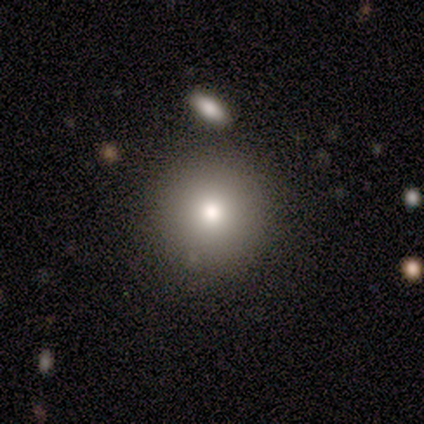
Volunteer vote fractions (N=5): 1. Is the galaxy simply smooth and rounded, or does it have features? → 100% smooth, 0% featured or disk, 0% star or artifact.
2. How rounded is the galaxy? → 100% round, 0% in between, 0% cigar-shaped.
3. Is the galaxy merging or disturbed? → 60% none, 20% minor disturbance, 20% merger, 0% major disturbance.